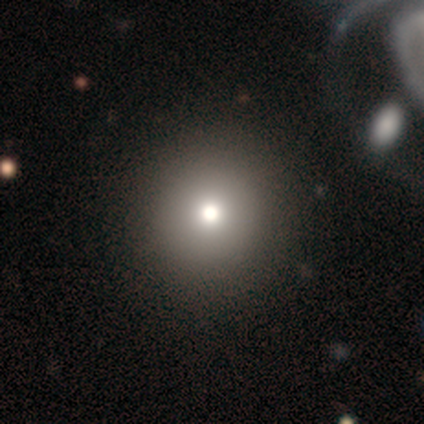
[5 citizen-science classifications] A star or artifact, not a galaxy (60%).